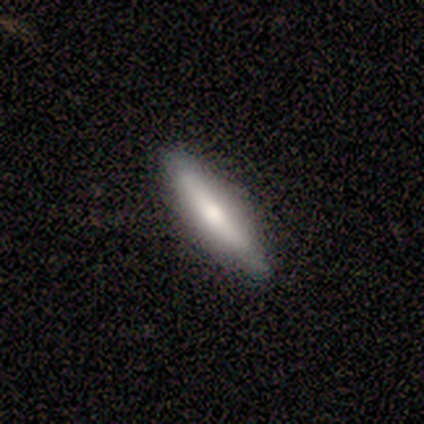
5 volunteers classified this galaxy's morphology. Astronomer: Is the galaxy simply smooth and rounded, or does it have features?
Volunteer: smooth — 60% (runner-up: featured or disk, 40%).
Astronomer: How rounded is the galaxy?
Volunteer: cigar-shaped — 100%.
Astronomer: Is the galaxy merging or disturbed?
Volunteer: none — 100%.